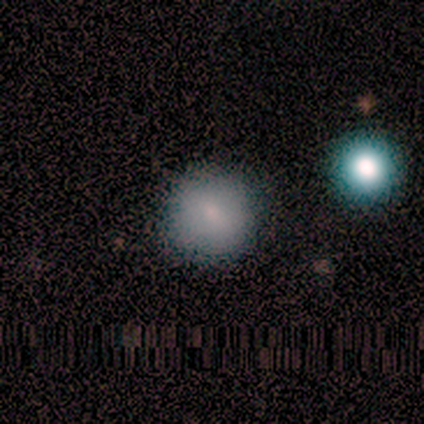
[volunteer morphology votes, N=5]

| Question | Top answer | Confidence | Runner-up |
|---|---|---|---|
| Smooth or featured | smooth | 100% | — |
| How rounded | round | 100% | — |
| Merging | none | 60% | minor disturbance (40%) |